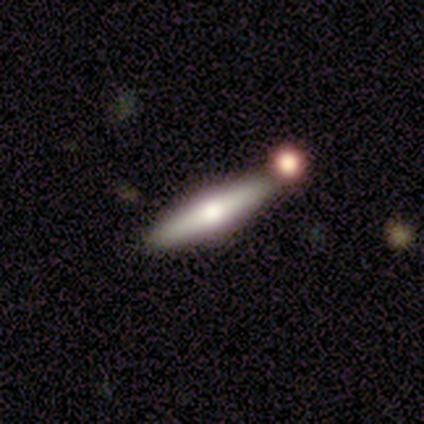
This appears to be a featured or disk galaxy (60%) viewed edge-on (100%) with a rounded central bulge (100%). Merging: none (100%).